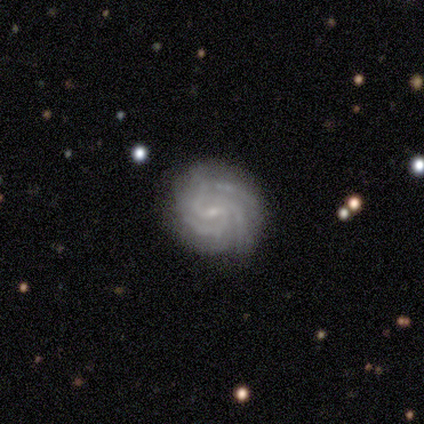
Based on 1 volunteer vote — Overall: featured or disk (100%). Edge-on disk: no (100%). Bar: weak (100%). Spiral arms: yes (100%). Spiral arm count: 3 (100%). Spiral winding: medium (100%). Bulge size: small (100%). Merging: none (100%).